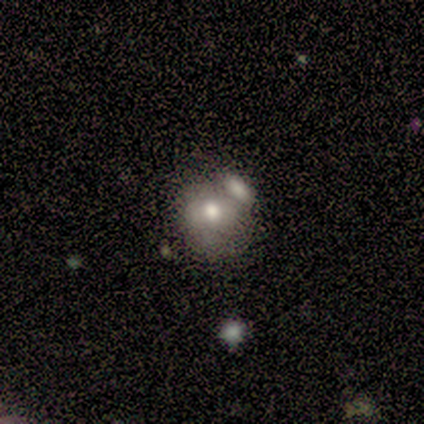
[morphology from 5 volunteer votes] smooth-or-featured: smooth: 80% | featured or disk: 20% | star or artifact: 0%
  how-rounded: in between: 75% | round: 25% | cigar-shaped: 0%
  merging: none: 60% | minor disturbance: 20% | merger: 20% | major disturbance: 0%